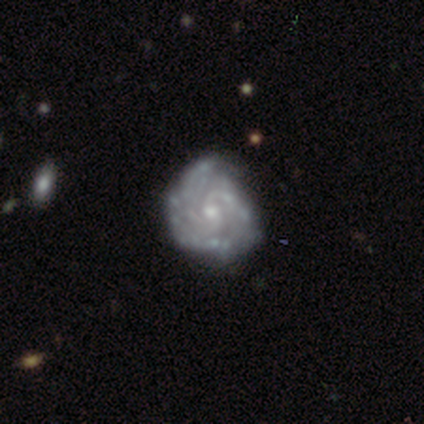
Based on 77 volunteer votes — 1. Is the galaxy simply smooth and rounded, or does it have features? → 96% featured or disk, 3% star or artifact, 1% smooth.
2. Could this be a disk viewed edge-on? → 100% no, 0% yes.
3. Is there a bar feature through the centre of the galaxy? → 77% no, 19% weak, 4% strong.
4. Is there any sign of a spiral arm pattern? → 96% yes, 4% no.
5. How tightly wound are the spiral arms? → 59% tight, 34% medium, 7% loose.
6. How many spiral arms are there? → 37% 3, 34% can't tell, 17% 2, 6% 4, 4% more than 4, 3% 1.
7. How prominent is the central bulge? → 69% small, 27% moderate, 4% none, 0% dominant, 0% large.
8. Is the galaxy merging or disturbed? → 31% none, 19% minor disturbance, 3% major disturbance, 0% merger.